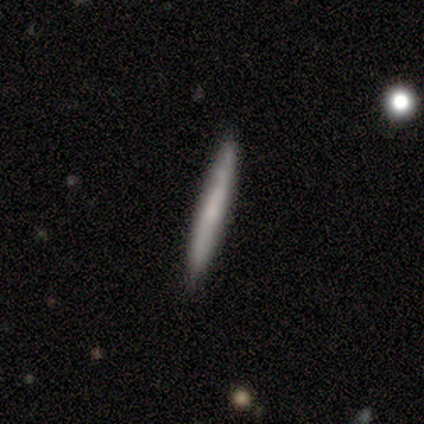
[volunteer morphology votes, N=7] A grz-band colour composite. It shows a smooth galaxy with no disk features (86%) that is cigar-shaped (100%). Merging: none (86%).